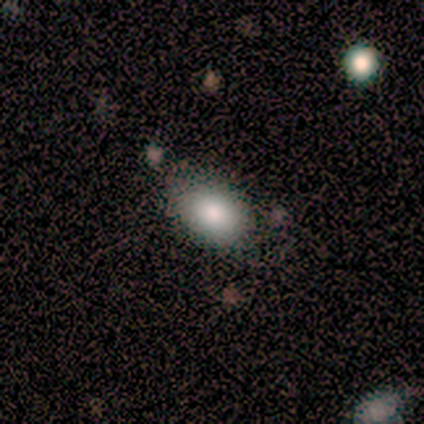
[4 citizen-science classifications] This appears to be a smooth galaxy with no disk features (100%) that is in between round and cigar-shaped (100%). Merging: none (100%).